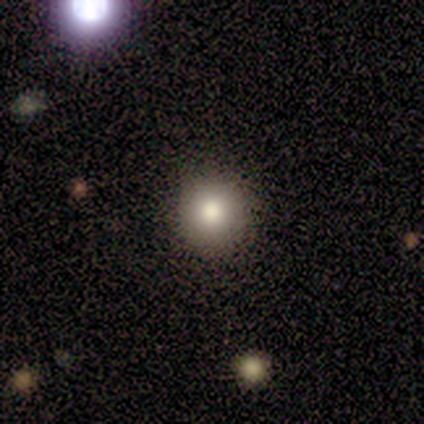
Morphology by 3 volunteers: smooth_or_featured: smooth (p=1.00)
how_rounded: round (p=0.67) [alt: in between p=0.33]
merging: none (p=1.00)